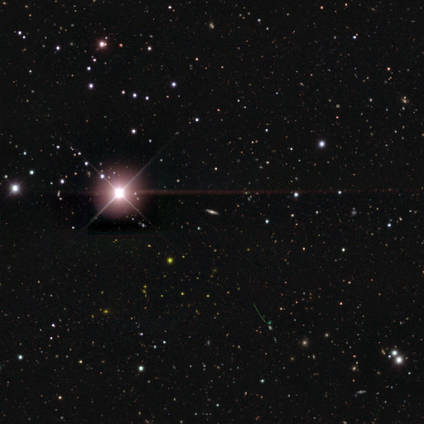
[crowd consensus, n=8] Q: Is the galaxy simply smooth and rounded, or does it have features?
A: star or artifact — 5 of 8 (62%).